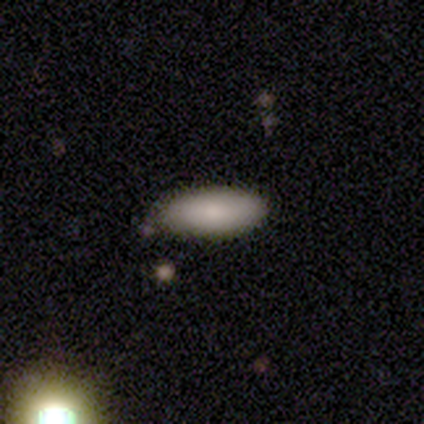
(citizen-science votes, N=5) This is likely a smooth galaxy (60%). How rounded: likely in between (67%). Merging: likely none (60%).